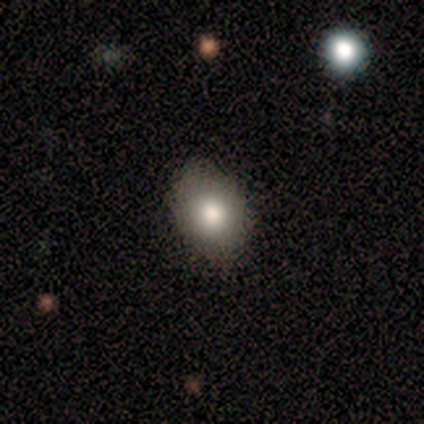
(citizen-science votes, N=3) This appears to be a smooth galaxy with no disk features (100%) that is round (67%). Merging: none (100%).